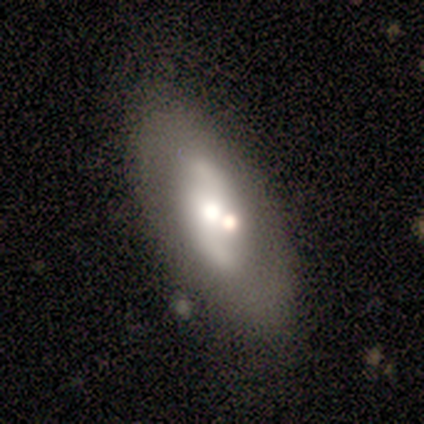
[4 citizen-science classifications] Volunteers were most divided on "merging": minor disturbance: 50%, none: 25%, merger: 25%, major disturbance: 0%. More confident: edge-on disk — no (100%); spiral winding — loose (100%); spiral arm count — 2 (100%); smooth or featured — featured or disk (75%); bar — no (67%); spiral arms — yes (67%); bulge size — small (67%).